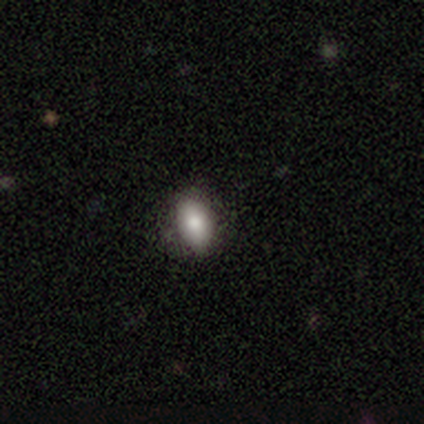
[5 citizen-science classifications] Volunteers were most divided on "how rounded": round: 60%, in between: 40%, cigar-shaped: 0%. More confident: smooth or featured — smooth (100%); merging — none (80%).